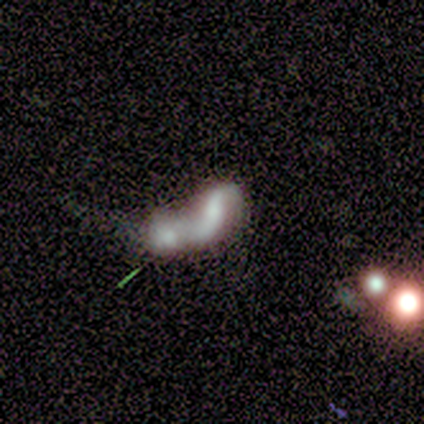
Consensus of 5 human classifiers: smooth-or-featured: featured or disk: 60% | smooth: 40% | star or artifact: 0%
  disk-edge-on: no: 100% | yes: 0%
    bar: no: 67% | weak: 33% | strong: 0%
    has-spiral-arms: yes: 67% | no: 33%
      spiral-winding: loose: 100% | tight: 0% | medium: 0%
      spiral-arm-count: 2: 50% (tied) | can't tell: 50% (tied) | 1: 0% | 3: 0% | 4: 0% | more than 4: 0%
    bulge-size: small: 67% | moderate: 33% | dominant: 0% | large: 0% | none: 0%
  merging: merger: 100% | none: 0% | minor disturbance: 0% | major disturbance: 0%